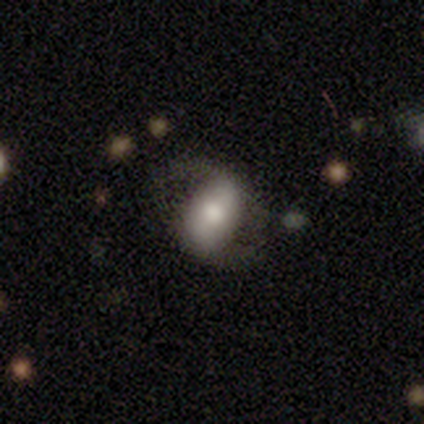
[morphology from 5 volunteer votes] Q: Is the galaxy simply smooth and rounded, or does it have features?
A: featured or disk — 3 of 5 (60%).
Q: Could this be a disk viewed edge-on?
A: no — 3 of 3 (100%).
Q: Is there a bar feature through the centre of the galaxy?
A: strong — 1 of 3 (33%, tied with weak and no).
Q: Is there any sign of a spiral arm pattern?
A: yes — 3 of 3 (100%).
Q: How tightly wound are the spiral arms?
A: loose — 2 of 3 (67%).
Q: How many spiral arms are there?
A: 2 — 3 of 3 (100%).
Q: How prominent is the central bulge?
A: moderate — 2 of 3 (67%).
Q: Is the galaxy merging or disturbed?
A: none — 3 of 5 (60%).